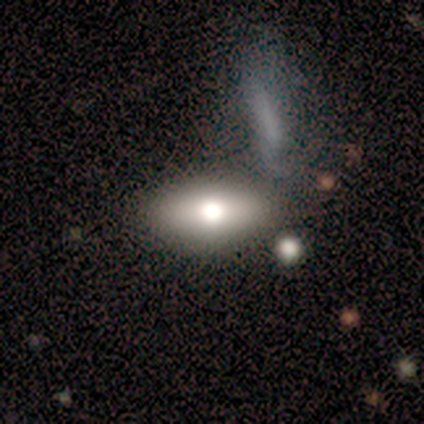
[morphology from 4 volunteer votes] Smooth or featured? 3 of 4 (75%) said smooth. How rounded? 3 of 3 (100%) said in between. Merging? 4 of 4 (100%) said none.